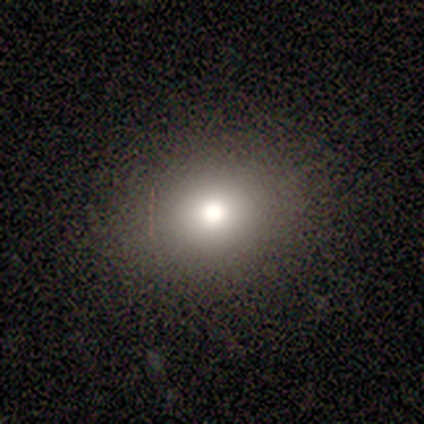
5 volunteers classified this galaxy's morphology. This appears to be a star or artifact, not a galaxy (60%).